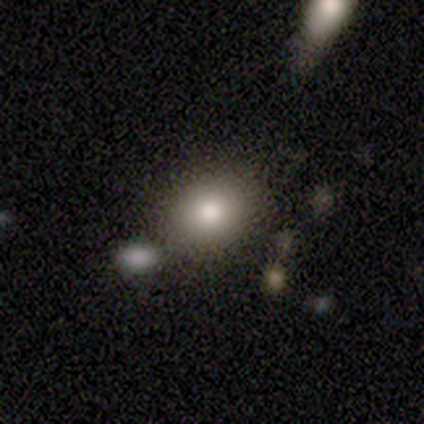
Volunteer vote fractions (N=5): Smooth or featured? 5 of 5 (100%) said smooth. How rounded? 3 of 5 (60%) said round. Merging? 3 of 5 (60%) said none.